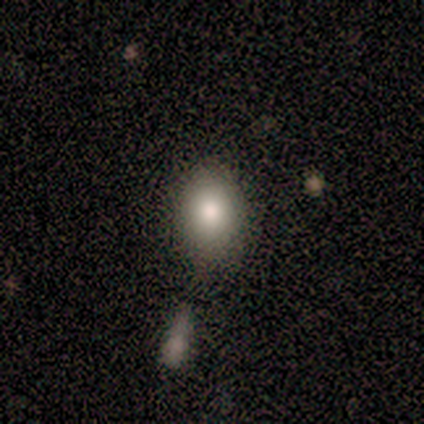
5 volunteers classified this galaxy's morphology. A smooth galaxy with no disk features (100%) that is round (60%). Merging: none (80%).